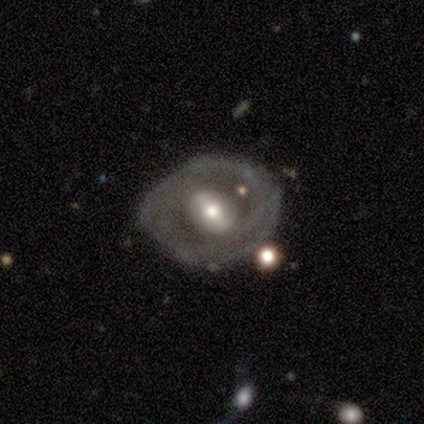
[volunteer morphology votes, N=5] Smooth or featured? 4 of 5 (80%) said featured or disk. Edge-on disk? 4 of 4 (100%) said no. Bar? 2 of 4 (50%, tied with no) said weak. Spiral arms? 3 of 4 (75%) said no. Bulge size? 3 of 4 (75%) said moderate. Merging? 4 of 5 (80%) said none.